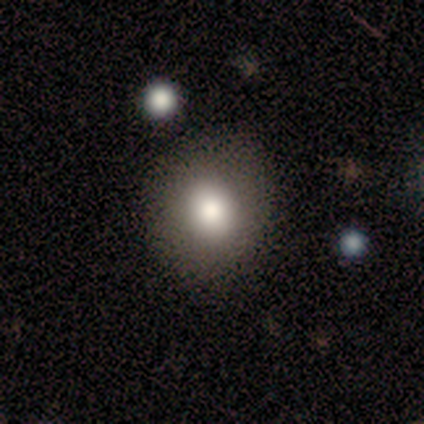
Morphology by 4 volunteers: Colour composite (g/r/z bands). It shows a smooth galaxy with no disk features (100%) that is round (50%, tied with in between). Merging: none (50%, tied with minor disturbance).